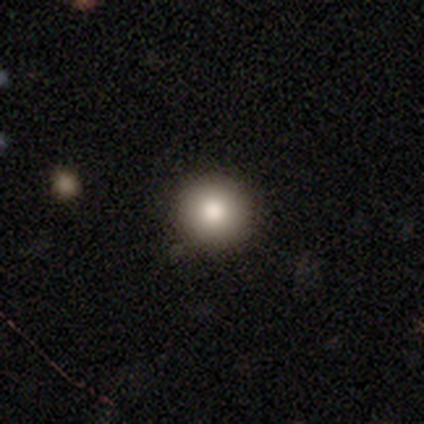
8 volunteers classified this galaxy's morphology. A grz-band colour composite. It shows a smooth galaxy with no disk features (62%) that is round (100%). Merging: none (88%).